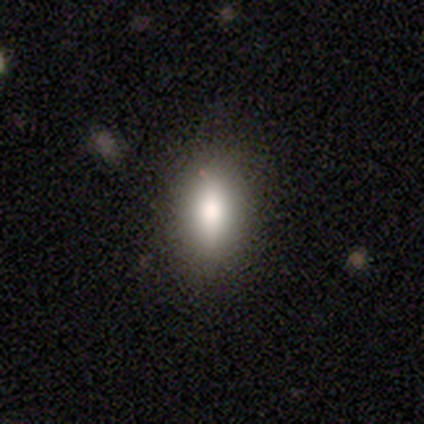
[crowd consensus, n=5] smooth_or_featured: smooth (p=0.80) [alt: featured or disk p=0.20]
how_rounded: in between (p=0.75) [alt: cigar-shaped p=0.25]
merging: none (p=1.00)